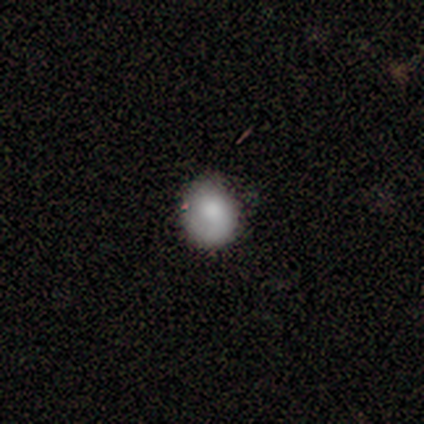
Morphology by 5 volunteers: A smooth galaxy with no disk features (80%) that is round (100%).

Vote fractions:
- Smooth or featured? smooth: 80% / featured or disk: 20% / star or artifact: 0%
- How rounded? round: 100% / in between: 0% / cigar-shaped: 0%
- Merging? none: 80% / minor disturbance: 20% / major disturbance: 0% / merger: 0%